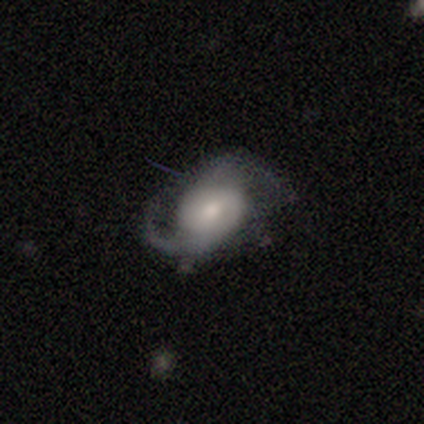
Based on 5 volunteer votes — Smooth or featured? 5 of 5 (100%) said featured or disk. Edge-on disk? 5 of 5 (100%) said no. Bar? 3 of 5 (60%) said weak. Spiral arms? 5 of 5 (100%) said yes. Spiral winding? 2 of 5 (40%, tied with medium) said tight. Spiral arm count? 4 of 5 (80%) said 2. Bulge size? 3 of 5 (60%) said moderate. Merging? 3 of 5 (60%) said none.